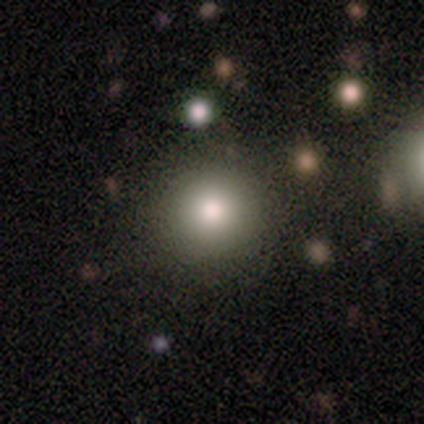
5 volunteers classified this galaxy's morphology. Smooth or featured? smooth (80%)
How rounded? round (100%)
Merging? none (100%)